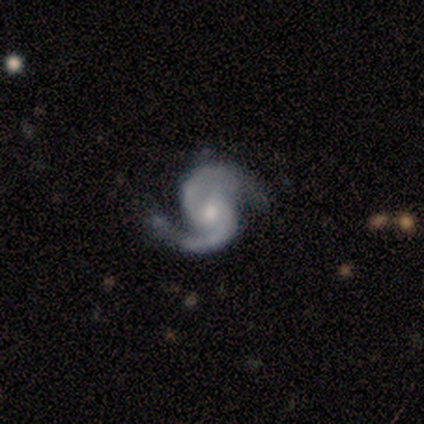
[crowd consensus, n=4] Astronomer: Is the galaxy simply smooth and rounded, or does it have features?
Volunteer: featured or disk — 75%.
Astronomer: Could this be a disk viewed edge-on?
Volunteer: no — 67%.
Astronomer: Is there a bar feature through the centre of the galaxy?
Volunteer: no — 100%.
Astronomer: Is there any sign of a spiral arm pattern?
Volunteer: yes — 100%.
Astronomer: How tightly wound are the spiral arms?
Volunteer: medium — 50%, tied with loose at 50%.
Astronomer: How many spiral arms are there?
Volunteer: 2 — 100%.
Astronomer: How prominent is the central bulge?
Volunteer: moderate — 100%.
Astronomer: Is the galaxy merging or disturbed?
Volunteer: none — 100%.